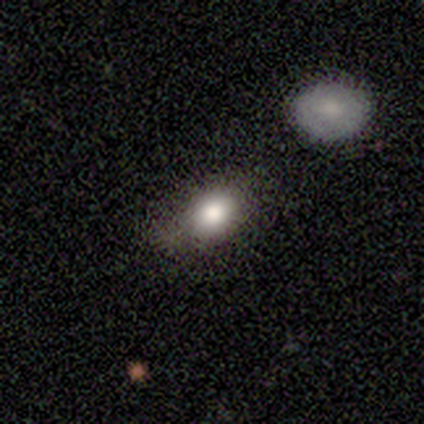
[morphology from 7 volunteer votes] smooth-or-featured: smooth: 86% | star or artifact: 14% | featured or disk: 0%
  how-rounded: in between: 100% | round: 0% | cigar-shaped: 0%
  merging: none: 83% | minor disturbance: 17% | major disturbance: 0% | merger: 0%